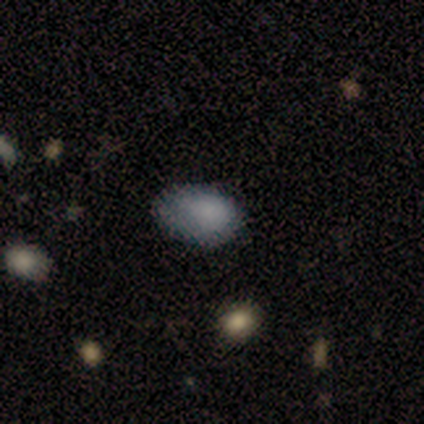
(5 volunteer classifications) smooth_or_featured: smooth (p=0.80) [alt: star or artifact p=0.20]
how_rounded: in between (p=1.00)
merging: none (p=0.75) [alt: merger p=0.25]